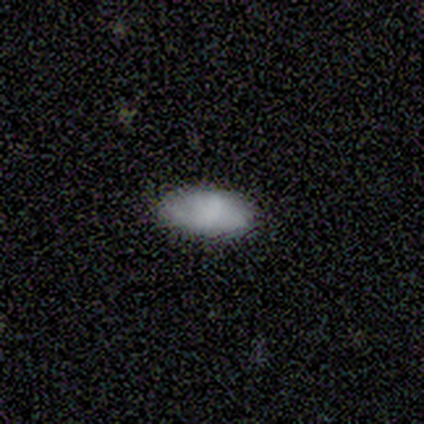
smooth_or_featured: smooth (p=0.80) [alt: featured or disk p=0.20]
how_rounded: in between (p=1.00)
merging: none (p=1.00)